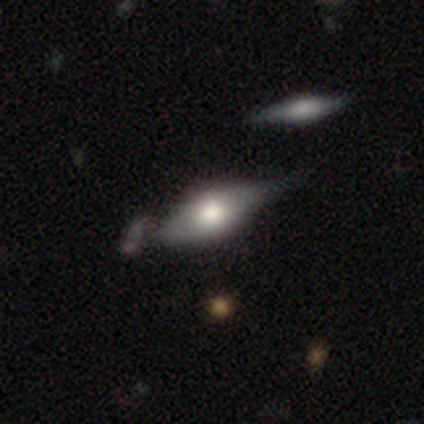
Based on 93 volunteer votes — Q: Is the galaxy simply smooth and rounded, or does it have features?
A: smooth — 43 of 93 (46%).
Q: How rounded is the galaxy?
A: in between — 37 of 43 (86%).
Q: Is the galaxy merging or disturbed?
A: none — 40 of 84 (48%).